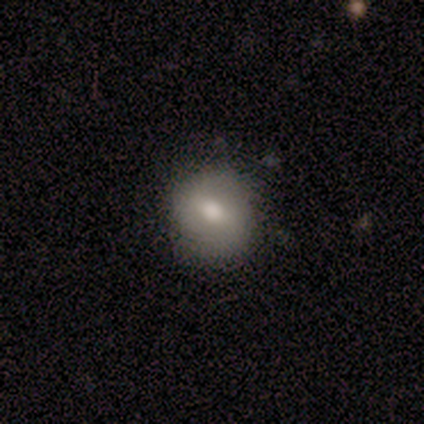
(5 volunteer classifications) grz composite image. It shows a smooth galaxy with no disk features (40%, tied with star or artifact) that is round (100%). Merging: none (100%).